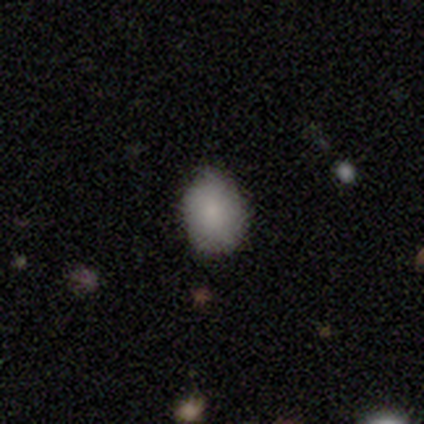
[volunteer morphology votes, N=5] smooth 80%, featured or disk 20%, star or artifact 0%. Down the decision tree: how rounded — round (50%, tied with in between); merging — none (100%).